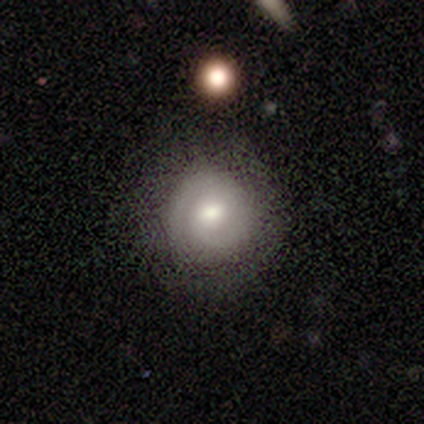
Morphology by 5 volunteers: smooth-or-featured: smooth: 80% | featured or disk: 20% | star or artifact: 0%
  how-rounded: round: 100% | in between: 0% | cigar-shaped: 0%
  merging: none: 100% | minor disturbance: 0% | major disturbance: 0% | merger: 0%